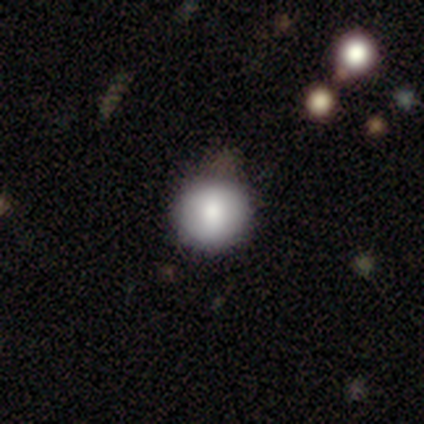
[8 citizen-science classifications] Smooth or featured? 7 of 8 (88%) said smooth. How rounded? 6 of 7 (86%) said round. Merging? 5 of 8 (62%) said none.